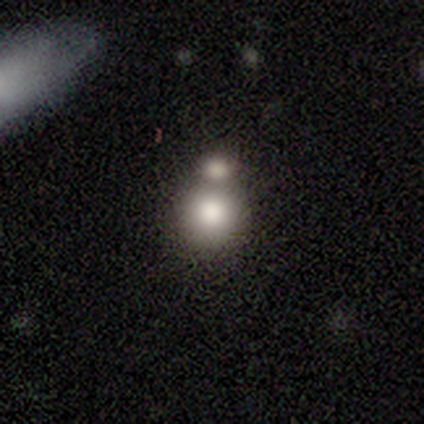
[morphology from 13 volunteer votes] A smooth galaxy with no disk features (62%) that is round (100%). Merging: none (62%).